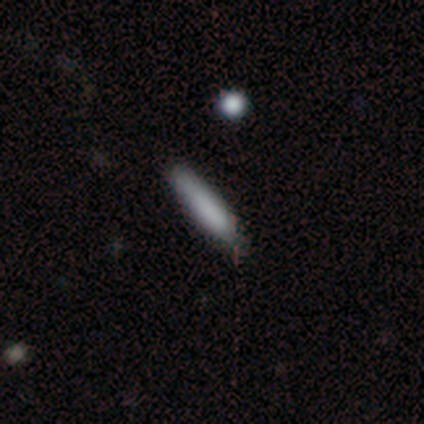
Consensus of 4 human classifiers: Volunteers were most divided on "how rounded": cigar-shaped: 75%, in between: 25%, round: 0%. More confident: smooth or featured — smooth (100%); merging — none (75%).